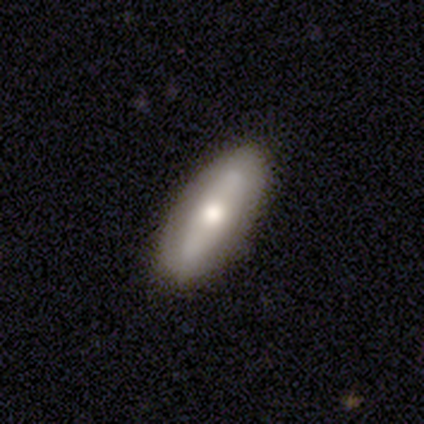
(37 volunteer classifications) Smooth or featured? 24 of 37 (65%) said smooth. How rounded? 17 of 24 (71%) said in between. Merging? 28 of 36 (78%) said none.